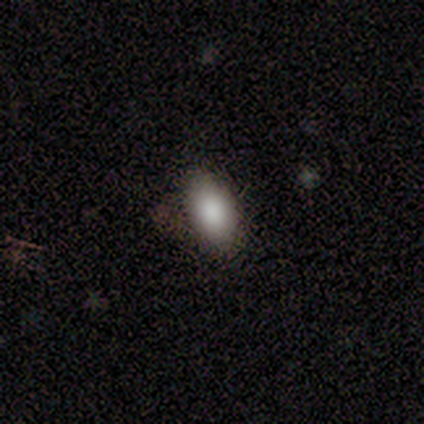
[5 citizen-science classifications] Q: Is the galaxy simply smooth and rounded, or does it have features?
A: smooth — 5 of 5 (100%).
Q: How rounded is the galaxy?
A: in between — 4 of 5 (80%).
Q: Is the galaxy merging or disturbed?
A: none — 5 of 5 (100%).